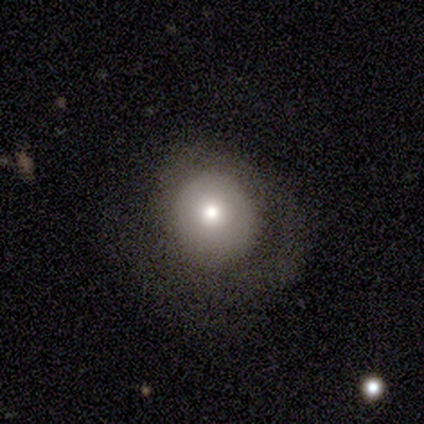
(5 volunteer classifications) Morphology: type=smooth (60%); roundness=round (67%); merging=none (80%).